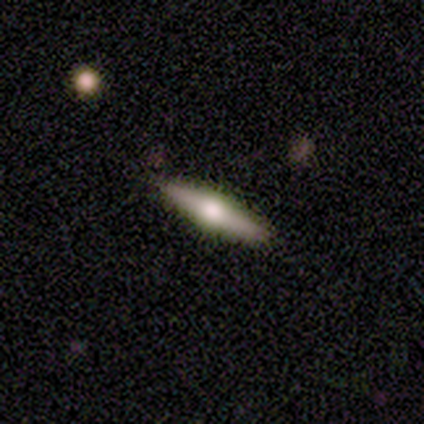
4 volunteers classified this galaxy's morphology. A featured or disk galaxy (75%) viewed edge-on (100%) with a rounded central bulge (100%).

Vote fractions:
- Smooth or featured? featured or disk: 75% / smooth: 25% / star or artifact: 0%
- Edge-on disk? yes: 100% / no: 0%
- Edge-on bulge? rounded: 100% / boxy: 0% / none: 0%
- Merging? none: 100% / minor disturbance: 0% / major disturbance: 0% / merger: 0%